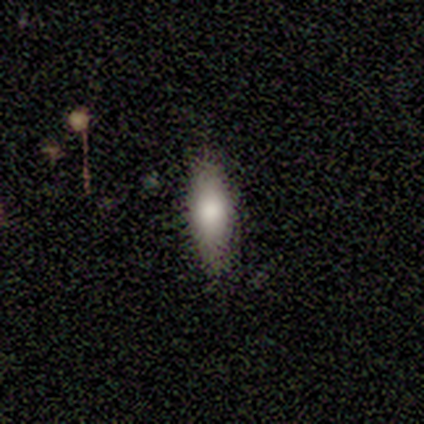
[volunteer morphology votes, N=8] smooth 88%, star or artifact 12%, featured or disk 0%. Down the decision tree: how rounded — in between (100%); merging — none (100%).